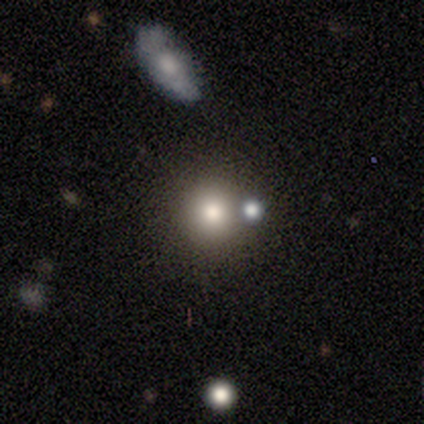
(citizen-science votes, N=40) A smooth galaxy with no disk features (62%) that is round (88%).

Vote fractions:
- Smooth or featured? smooth: 62% / star or artifact: 28% / featured or disk: 10%
- How rounded? round: 88% / in between: 12% / cigar-shaped: 0%
- Merging? none: 72% / minor disturbance: 14% / merger: 10% / major disturbance: 3%